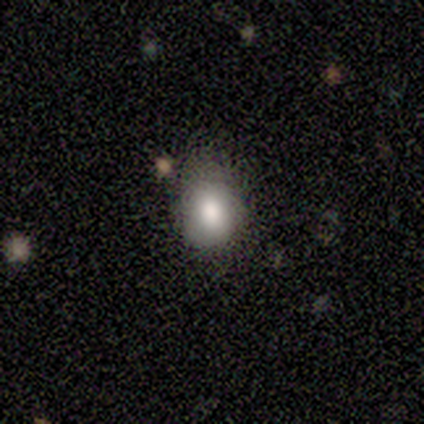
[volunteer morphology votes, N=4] type=smooth (100%); roundness=round (75%); merging=minor disturbance (75%).